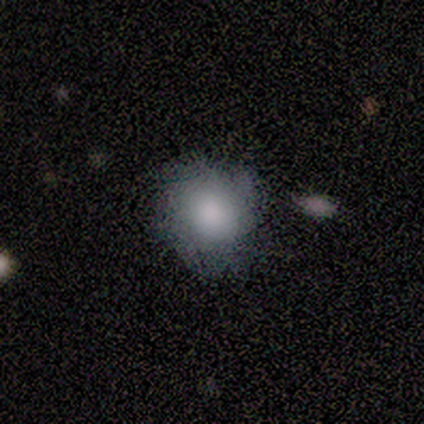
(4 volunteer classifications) This is possibly a smooth galaxy (50%). How rounded: possibly round (50%, tied with in between). Merging: likely none (67%).